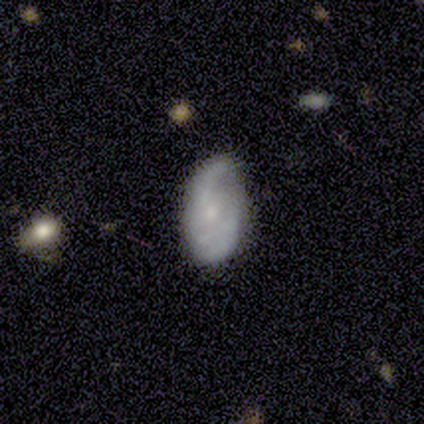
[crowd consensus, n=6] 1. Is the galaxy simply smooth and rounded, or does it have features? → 67% smooth, 33% featured or disk, 0% star or artifact.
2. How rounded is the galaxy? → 75% in between, 25% round, 0% cigar-shaped.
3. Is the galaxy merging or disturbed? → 67% none, 17% minor disturbance, 17% major disturbance, 0% merger.